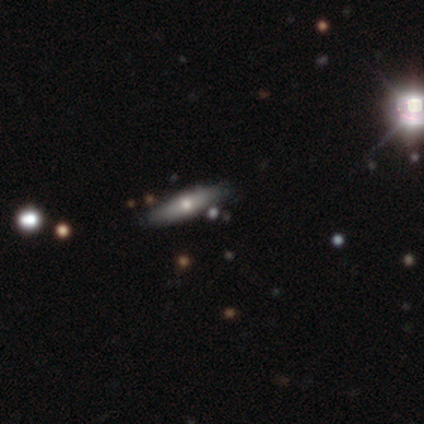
featured or disk 55%, smooth 29%, star or artifact 16%. Down the decision tree: edge-on disk — yes (94%); edge-on bulge — rounded (100%); merging — none (85%).